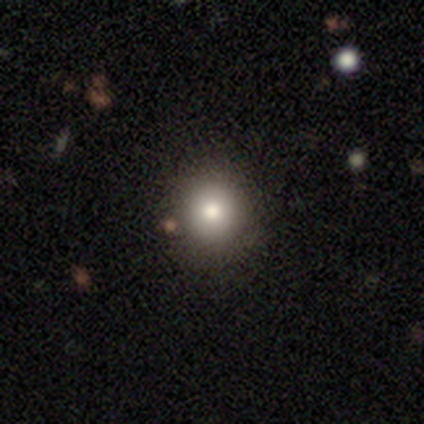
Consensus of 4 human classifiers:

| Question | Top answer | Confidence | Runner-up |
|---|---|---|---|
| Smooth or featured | smooth | 50% | featured or disk (25%) |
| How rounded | round | 100% | — |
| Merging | none | 100% | — |